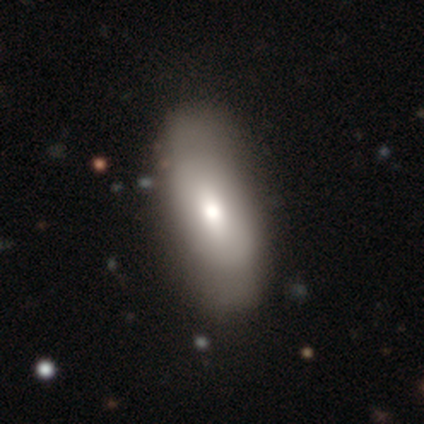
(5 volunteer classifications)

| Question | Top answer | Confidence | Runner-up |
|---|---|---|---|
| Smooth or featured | featured or disk | 80% | smooth (20%) |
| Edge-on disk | no | 75% | yes (25%) |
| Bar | no | 67% | weak (33%) |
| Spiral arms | no | 67% | yes (33%) |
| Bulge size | moderate | 67% | large (33%) |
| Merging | none | 60% | minor disturbance (20%) |